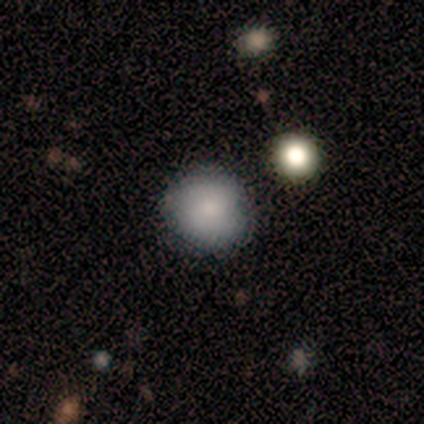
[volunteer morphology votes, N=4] Smooth or featured: smooth — 75% (star or artifact — 25%)
How rounded: round — 100%
Merging: none — 67% (minor disturbance — 33%)